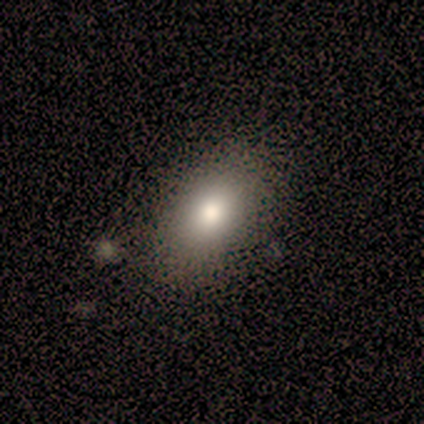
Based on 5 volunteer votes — Q: Smooth or featured?
A: smooth (80%); runner-up: featured or disk (20%)
Q: How rounded?
A: in between (100%)
Q: Merging?
A: none (60%); runner-up: major disturbance (40%)